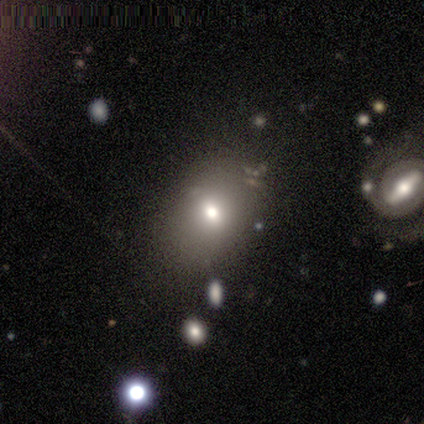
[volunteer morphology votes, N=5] type=smooth (60%); roundness=in between (100%); merging=minor disturbance (100%).